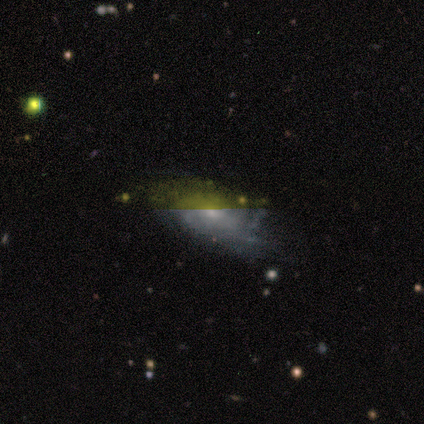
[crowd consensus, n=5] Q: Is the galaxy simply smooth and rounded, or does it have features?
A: featured or disk — 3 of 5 (60%).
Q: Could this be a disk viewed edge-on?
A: no — 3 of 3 (100%).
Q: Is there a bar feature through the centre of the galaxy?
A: weak — 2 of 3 (67%).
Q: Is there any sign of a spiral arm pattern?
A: yes — 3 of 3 (100%).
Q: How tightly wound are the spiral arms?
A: tight — 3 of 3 (100%).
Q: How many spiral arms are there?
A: can't tell — 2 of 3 (67%).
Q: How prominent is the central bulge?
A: small — 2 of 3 (67%).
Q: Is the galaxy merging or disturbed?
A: none — 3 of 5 (60%).